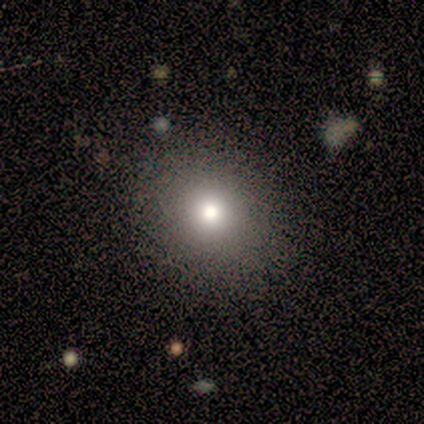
Overall: smooth (80%). How rounded: round (75%). Merging: none (25%, tied with minor disturbance, major disturbance and merger).